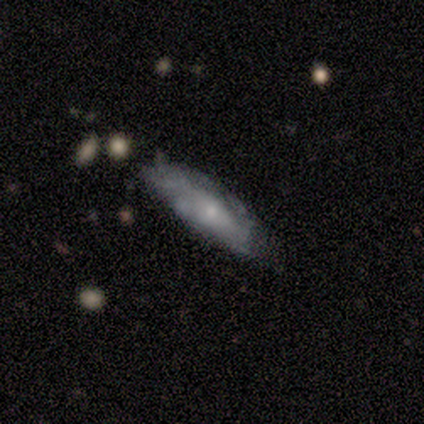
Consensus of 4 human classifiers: Q: Smooth or featured?
A: smooth (100%)
Q: How rounded?
A: in between (50%); tied with: cigar-shaped (50%)
Q: Merging?
A: none (50%); tied with: major disturbance (50%)